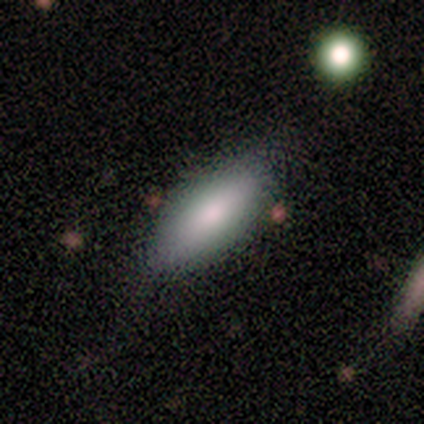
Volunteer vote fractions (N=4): A smooth galaxy with no disk features (50%, tied with featured or disk) that is in between round and cigar-shaped (100%).

Vote fractions:
- Smooth or featured? smooth: 50% (tied) / featured or disk: 50% (tied) / star or artifact: 0%
- How rounded? in between: 100% / round: 0% / cigar-shaped: 0%
- Merging? none: 75% / minor disturbance: 25% / major disturbance: 0% / merger: 0%